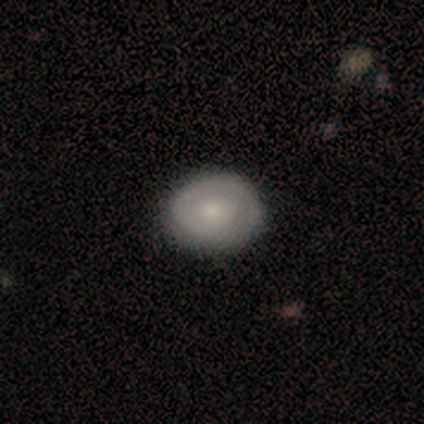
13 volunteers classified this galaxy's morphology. smooth 54%, featured or disk 46%, star or artifact 0%. Down the decision tree: how rounded — round (71%); merging — none (77%).